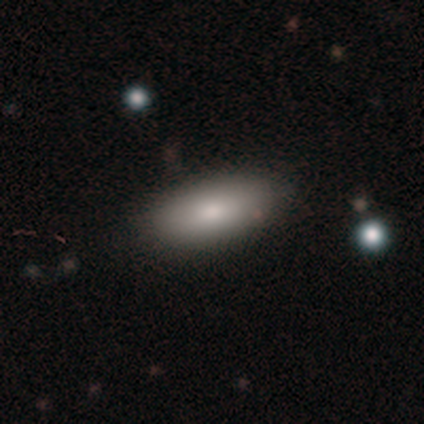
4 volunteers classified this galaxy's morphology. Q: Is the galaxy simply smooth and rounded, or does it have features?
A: smooth — 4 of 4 (100%).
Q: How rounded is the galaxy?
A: in between — 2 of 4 (50%, tied with cigar-shaped).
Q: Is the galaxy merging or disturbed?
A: none — 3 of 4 (75%).